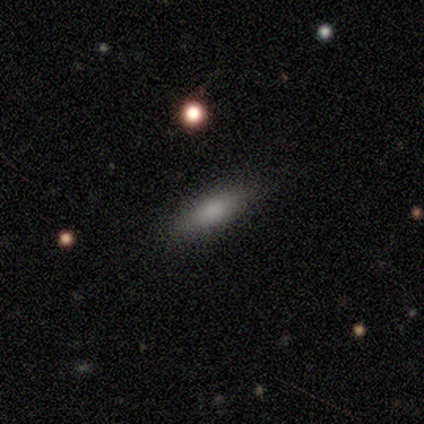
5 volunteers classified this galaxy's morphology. Smooth or featured? smooth (100%)
How rounded? cigar-shaped (80%)
Merging? none (80%)